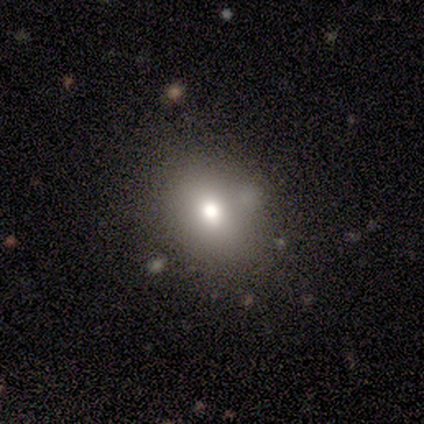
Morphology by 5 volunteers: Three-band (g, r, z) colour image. It shows a smooth galaxy with no disk features (60%) that is round (100%). Merging: none (100%).